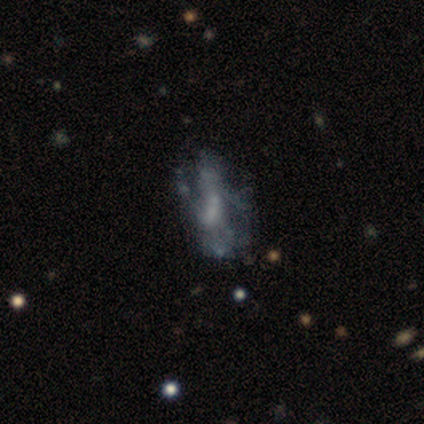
smooth-or-featured: featured or disk: 59% | smooth: 33% | star or artifact: 8%
  disk-edge-on: no: 100% | yes: 0%
    bar: no: 61% | weak: 30% | strong: 9%
    has-spiral-arms: no: 70% | yes: 30%
    bulge-size: small: 52% | none: 26% | moderate: 17% | large: 4% | dominant: 0%
  merging: none: 39% (tied) | major disturbance: 39% (tied) | minor disturbance: 17% | merger: 6%